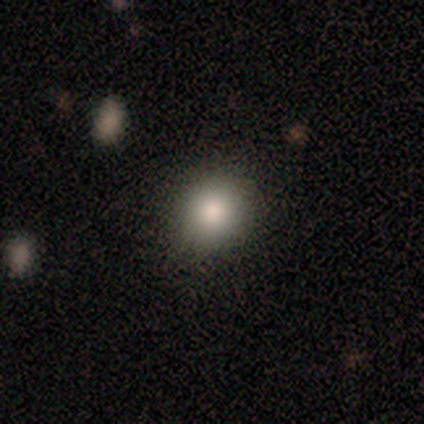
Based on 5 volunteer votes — Smooth or featured? 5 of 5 (100%) said smooth. How rounded? 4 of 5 (80%) said round. Merging? 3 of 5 (60%) said none.